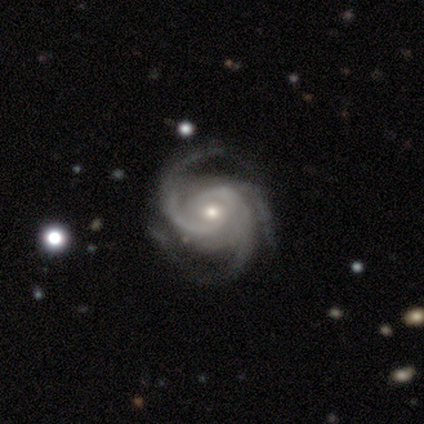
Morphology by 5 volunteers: Volunteers were most divided on "bulge size": small: 60%, moderate: 40%, dominant: 0%, large: 0%, none: 0%. More confident: smooth or featured — featured or disk (100%); edge-on disk — no (100%); bar — no (100%); spiral winding — tight (100%); spiral arms — yes (80%); merging — minor disturbance (60%); spiral arm count — 3 (50%).